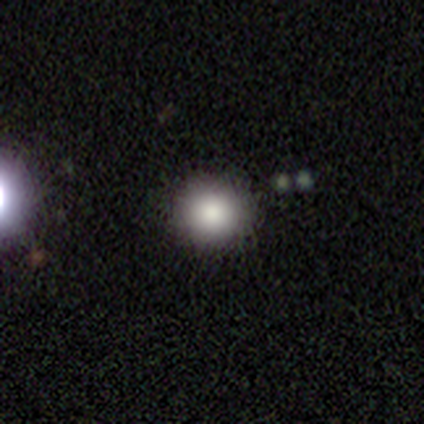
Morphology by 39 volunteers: smooth 82%, star or artifact 15%, featured or disk 3%. Down the decision tree: how rounded — round (97%); merging — none (94%).